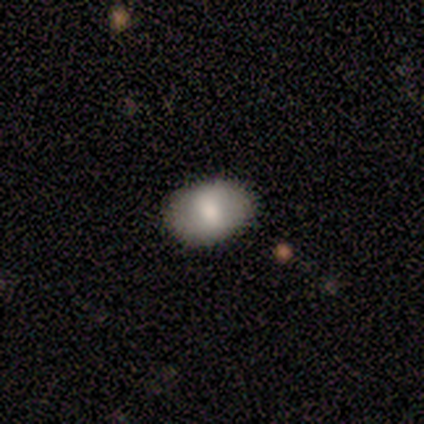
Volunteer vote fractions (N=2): Q: Smooth or featured?
A: smooth (100%)
Q: How rounded?
A: in between (100%)
Q: Merging?
A: none (100%)